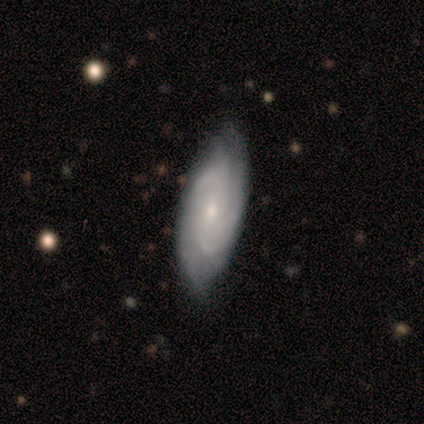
smooth_or_featured: smooth (p=0.60) [alt: featured or disk p=0.40]
how_rounded: cigar-shaped (p=0.67) [alt: in between p=0.33]
merging: none (p=0.60) [alt: minor disturbance p=0.40]